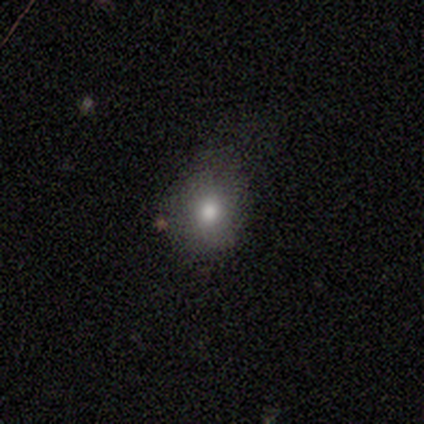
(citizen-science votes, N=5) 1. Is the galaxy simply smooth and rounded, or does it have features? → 80% smooth, 20% featured or disk, 0% star or artifact.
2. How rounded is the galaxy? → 100% round, 0% in between, 0% cigar-shaped.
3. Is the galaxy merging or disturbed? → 60% minor disturbance, 40% none, 0% major disturbance, 0% merger.